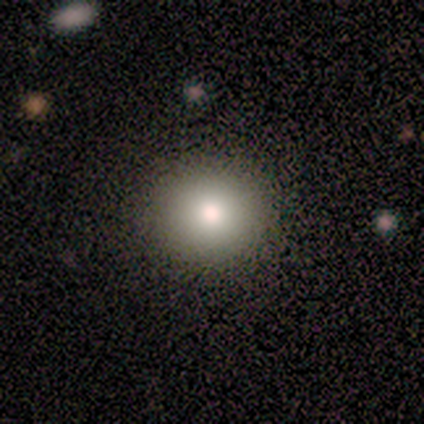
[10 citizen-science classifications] smooth 90%, featured or disk 10%, star or artifact 0%. Down the decision tree: how rounded — round (100%); merging — none (80%).